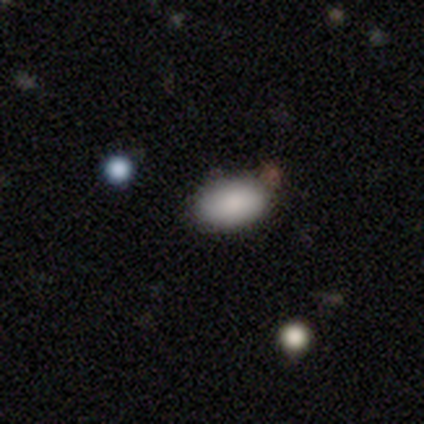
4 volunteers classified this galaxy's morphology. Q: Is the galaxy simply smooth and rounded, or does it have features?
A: smooth — 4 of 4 (100%).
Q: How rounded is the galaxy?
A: in between — 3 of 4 (75%).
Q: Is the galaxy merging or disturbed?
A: none — 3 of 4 (75%).